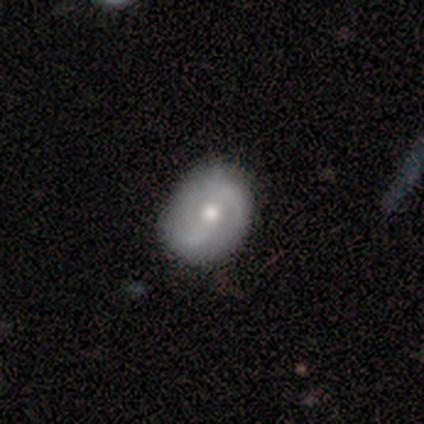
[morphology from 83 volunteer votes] Overall: featured or disk (52%; smooth 40%). Edge-on disk: no (100%). Bar: no (53%; weak 37%). Spiral arms: yes (86%). Spiral arm count: 2 (78%). Spiral winding: medium (43%; loose 35%). Bulge size: moderate (77%). Merging: none (80%).